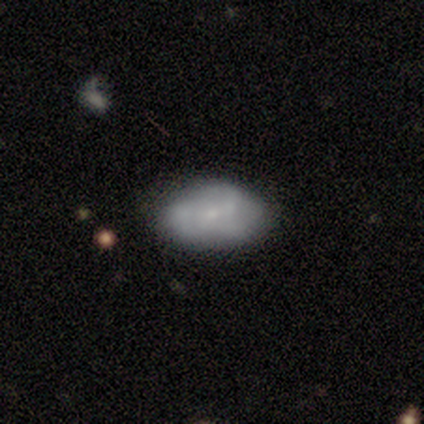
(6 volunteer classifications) Smooth or featured? 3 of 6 (50%, tied with featured or disk) said smooth. How rounded? 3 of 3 (100%) said in between. Merging? 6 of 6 (100%) said none.